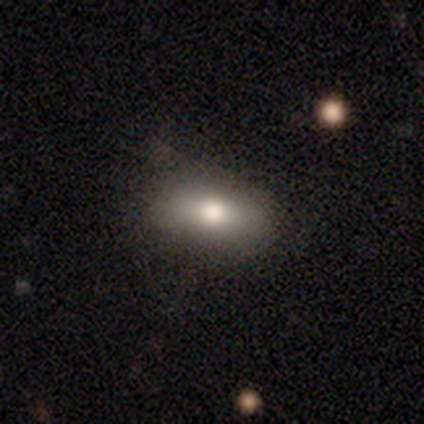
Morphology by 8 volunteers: smooth-or-featured: smooth: 100% | featured or disk: 0% | star or artifact: 0%
  how-rounded: in between: 100% | round: 0% | cigar-shaped: 0%
  merging: none: 88% | minor disturbance: 12% | major disturbance: 0% | merger: 0%